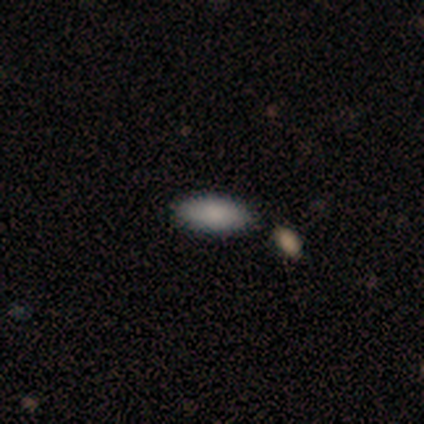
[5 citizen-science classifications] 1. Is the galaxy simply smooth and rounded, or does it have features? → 80% smooth, 20% featured or disk, 0% star or artifact.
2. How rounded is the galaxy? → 50% in between, 25% round, 25% cigar-shaped.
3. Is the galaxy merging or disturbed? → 100% none, 0% minor disturbance, 0% major disturbance, 0% merger.